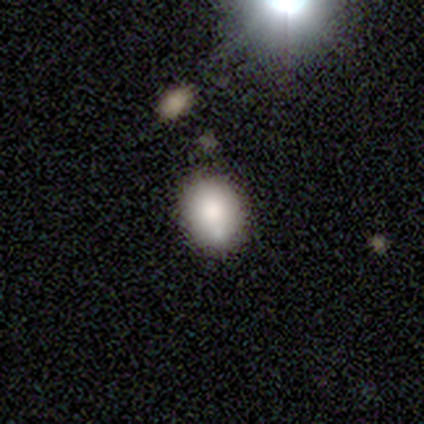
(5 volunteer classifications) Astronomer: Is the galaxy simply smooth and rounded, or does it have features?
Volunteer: smooth — 80%.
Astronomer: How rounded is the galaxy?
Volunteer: round — 50%, tied with in between at 50%.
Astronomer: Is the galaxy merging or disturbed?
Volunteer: none — 80%.